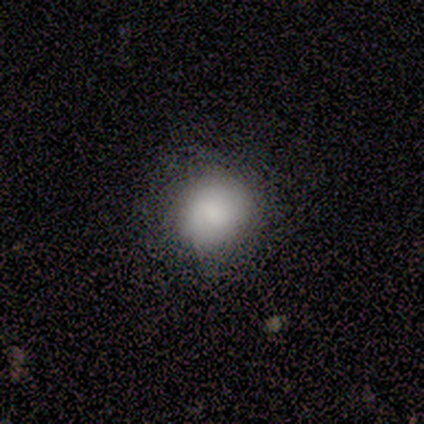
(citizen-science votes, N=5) Smooth or featured? smooth (80%)
How rounded? round (75%)
Merging? none (100%)